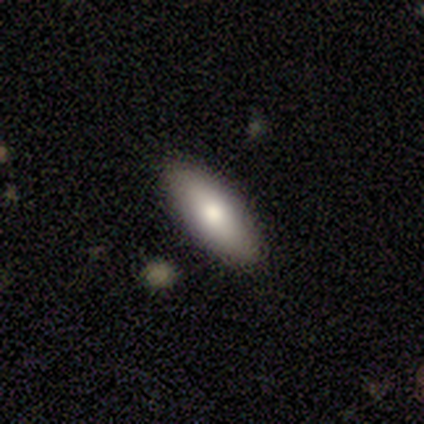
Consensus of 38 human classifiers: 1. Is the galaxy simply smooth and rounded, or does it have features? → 84% smooth, 8% featured or disk, 8% star or artifact.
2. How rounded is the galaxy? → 59% in between, 41% cigar-shaped, 0% round.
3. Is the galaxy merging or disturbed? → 89% none, 6% minor disturbance, 6% major disturbance, 0% merger.